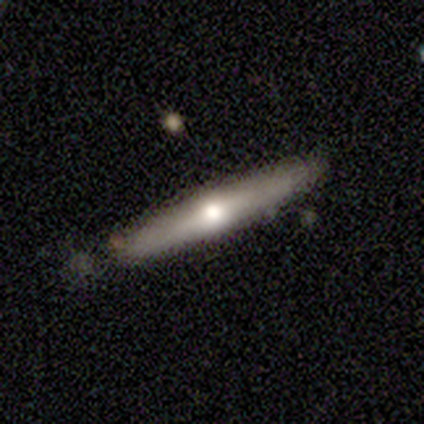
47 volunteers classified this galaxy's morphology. smooth-or-featured: featured or disk: 60% | smooth: 38% | star or artifact: 2%
  disk-edge-on: yes: 89% | no: 11%
    edge-on-bulge: rounded: 100% | boxy: 0% | none: 0%
  merging: none: 80% | minor disturbance: 17% | major disturbance: 2% | merger: 0%